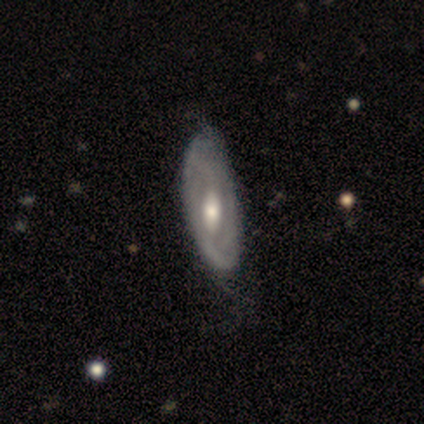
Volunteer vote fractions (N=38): A featured or disk galaxy (84%) with a weak bar (46%), 2 (53%) tight (35%, tied with loose) spiral arms (65%) and a moderate central bulge (69%). Merging: none (50%).